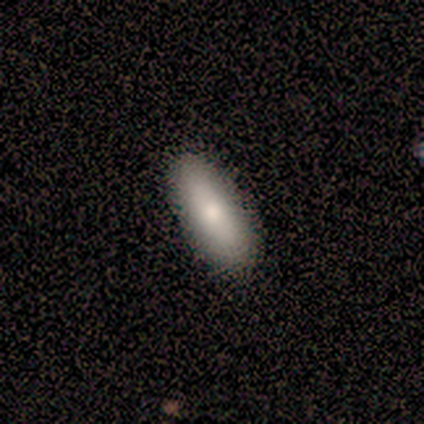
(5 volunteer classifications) Smooth or featured? 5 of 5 (100%) said smooth. How rounded? 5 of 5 (100%) said in between. Merging? 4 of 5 (80%) said none.